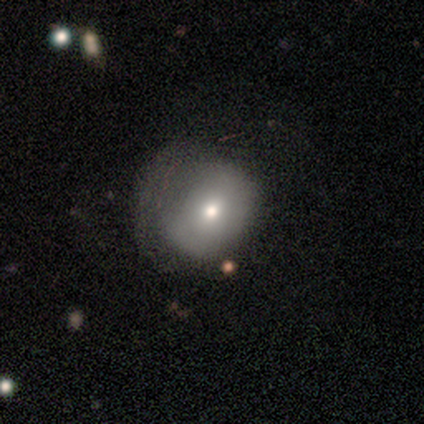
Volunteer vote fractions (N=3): Volunteers were most divided on "smooth or featured": smooth: 67%, featured or disk: 33%, star or artifact: 0%. More confident: how rounded — round (100%); merging — minor disturbance (67%).